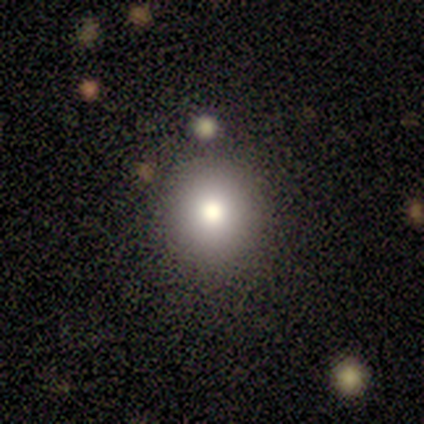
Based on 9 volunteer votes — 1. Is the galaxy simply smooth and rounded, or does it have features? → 78% smooth, 11% featured or disk, 11% star or artifact.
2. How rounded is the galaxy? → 71% round, 29% in between, 0% cigar-shaped.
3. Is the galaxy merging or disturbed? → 88% none, 12% minor disturbance, 0% major disturbance, 0% merger.